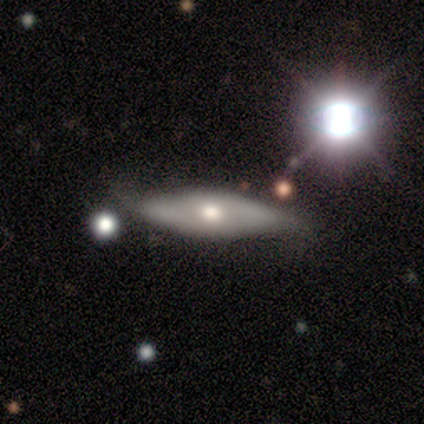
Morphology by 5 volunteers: This appears to be a smooth galaxy with no disk features (80%) that is in between round and cigar-shaped (50%, tied with cigar-shaped). Merging: none (60%).